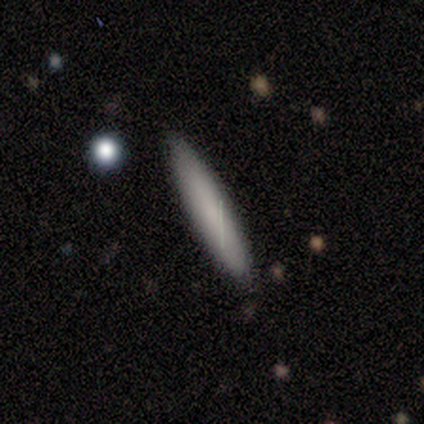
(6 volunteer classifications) Q: Smooth or featured?
A: smooth (83%); runner-up: featured or disk (17%)
Q: How rounded?
A: cigar-shaped (100%)
Q: Merging?
A: none (67%); runner-up: minor disturbance (33%)